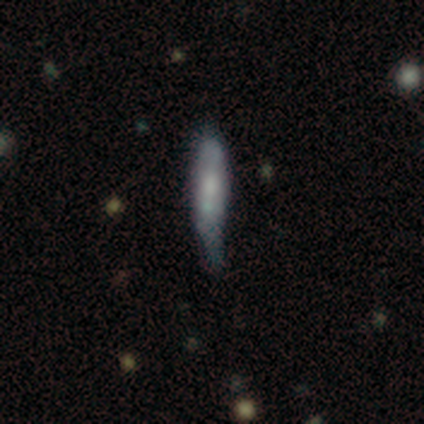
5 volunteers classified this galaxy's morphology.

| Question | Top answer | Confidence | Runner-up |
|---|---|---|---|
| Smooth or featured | smooth | 60% | featured or disk (40%) |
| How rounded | cigar-shaped | 100% | — |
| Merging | none | 40% | tied: minor disturbance (40%) |